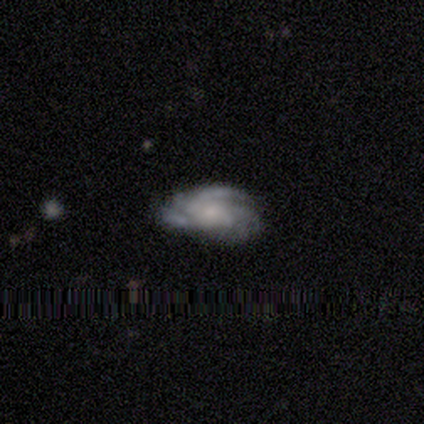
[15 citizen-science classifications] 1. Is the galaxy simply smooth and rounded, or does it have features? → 100% featured or disk, 0% smooth, 0% star or artifact.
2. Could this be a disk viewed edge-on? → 100% no, 0% yes.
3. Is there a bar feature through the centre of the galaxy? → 80% no, 13% weak, 7% strong.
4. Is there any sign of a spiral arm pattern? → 93% yes, 7% no.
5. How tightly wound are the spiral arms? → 57% tight, 43% medium, 0% loose.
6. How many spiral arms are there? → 36% can't tell, 29% 3, 29% 4, 7% 2, 0% 1, 0% more than 4.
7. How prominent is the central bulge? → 67% small, 13% moderate, 7% dominant, 7% large, 7% none.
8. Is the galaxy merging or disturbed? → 67% none, 27% minor disturbance, 7% major disturbance, 0% merger.